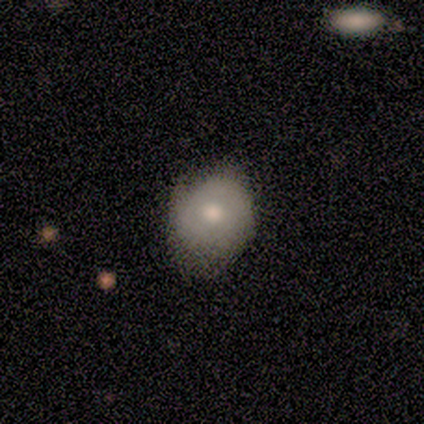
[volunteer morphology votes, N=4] smooth 75%, featured or disk 25%, star or artifact 0%. Down the decision tree: how rounded — round (100%); merging — none (50%).